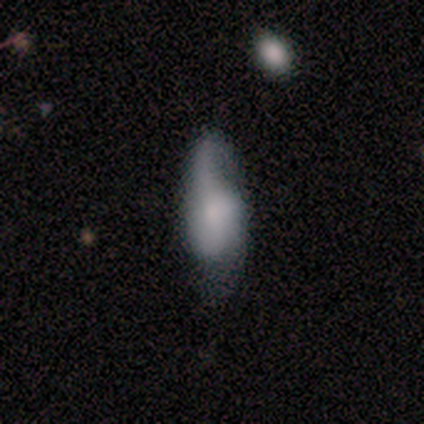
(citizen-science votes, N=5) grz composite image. It shows a smooth galaxy with no disk features (60%) that is in between round and cigar-shaped (100%). Merging: none (40%, tied with minor disturbance).